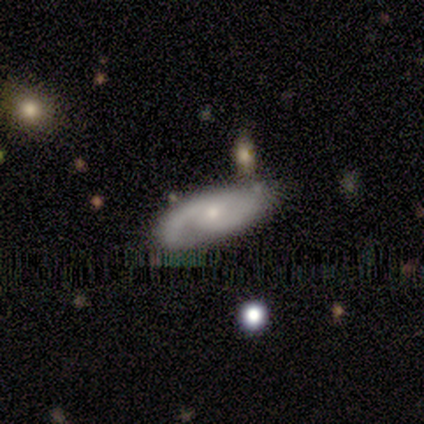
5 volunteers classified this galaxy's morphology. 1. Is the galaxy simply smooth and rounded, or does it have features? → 100% featured or disk, 0% smooth, 0% star or artifact.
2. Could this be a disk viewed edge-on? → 100% no, 0% yes.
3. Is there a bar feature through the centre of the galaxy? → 80% weak, 20% no, 0% strong.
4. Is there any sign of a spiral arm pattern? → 100% yes, 0% no.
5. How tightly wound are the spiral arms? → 100% medium, 0% tight, 0% loose.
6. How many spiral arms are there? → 100% 2, 0% 1, 0% 3, 0% 4, 0% more than 4, 0% can't tell.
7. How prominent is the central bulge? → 60% moderate, 40% small, 0% dominant, 0% large, 0% none.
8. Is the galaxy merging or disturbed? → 80% none, 20% minor disturbance, 0% major disturbance, 0% merger.